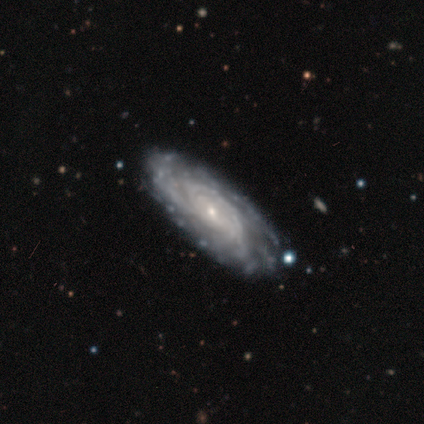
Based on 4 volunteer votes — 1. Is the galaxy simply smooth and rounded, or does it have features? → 75% featured or disk, 25% smooth, 0% star or artifact.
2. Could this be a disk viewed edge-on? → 100% no, 0% yes.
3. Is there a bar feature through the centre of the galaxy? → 100% no, 0% strong, 0% weak.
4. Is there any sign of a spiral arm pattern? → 100% yes, 0% no.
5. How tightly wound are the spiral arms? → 100% tight, 0% medium, 0% loose.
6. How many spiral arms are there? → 100% can't tell, 0% 1, 0% 2, 0% 3, 0% 4, 0% more than 4.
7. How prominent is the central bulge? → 100% small, 0% dominant, 0% large, 0% moderate, 0% none.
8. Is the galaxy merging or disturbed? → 100% none, 0% minor disturbance, 0% major disturbance, 0% merger.